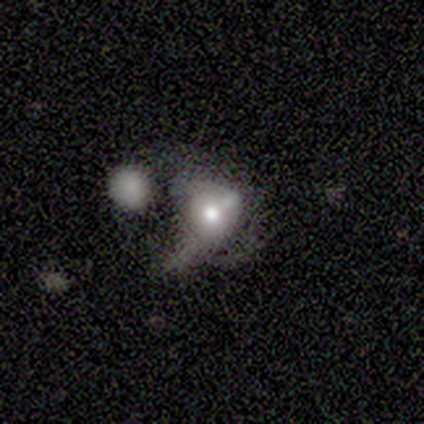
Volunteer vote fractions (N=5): This appears to be a featured or disk galaxy (80%) with no bar (100%), no spiral arms (100%) and a moderate central bulge (75%). Merging: merger (80%).